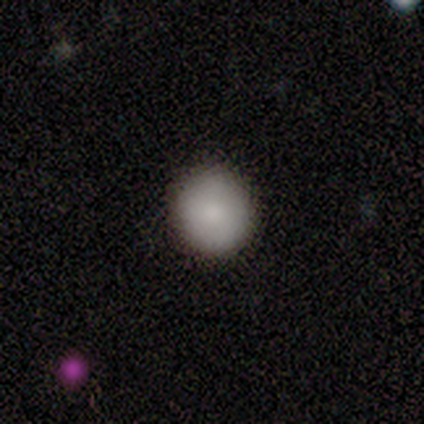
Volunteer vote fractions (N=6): Smooth or featured?
  - smooth: 100% *
  - featured or disk: 0%
  - star or artifact: 0%
How rounded?
  - round: 83% *
  - in between: 17%
  - cigar-shaped: 0%
Merging?
  - none: 100% *
  - minor disturbance: 0%
  - major disturbance: 0%
  - merger: 0%